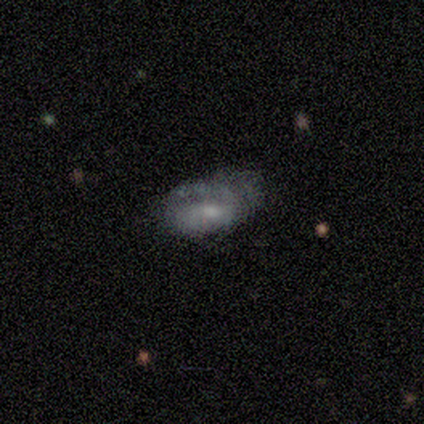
Smooth or featured: smooth — 50% (featured or disk — 40%)
How rounded: in between — 80% (cigar-shaped — 20%)
Merging: minor disturbance — 33% (tied with major disturbance — 33%)